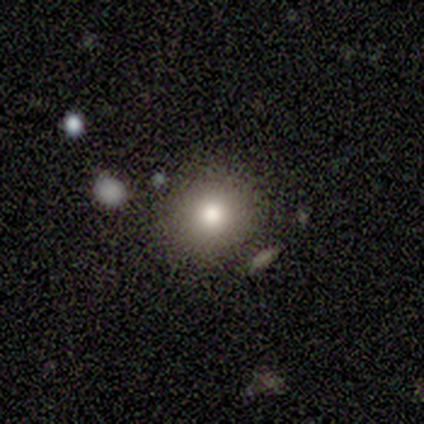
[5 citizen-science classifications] This is clearly a smooth galaxy (100%). How rounded: clearly round (100%). Merging: clearly none (100%).